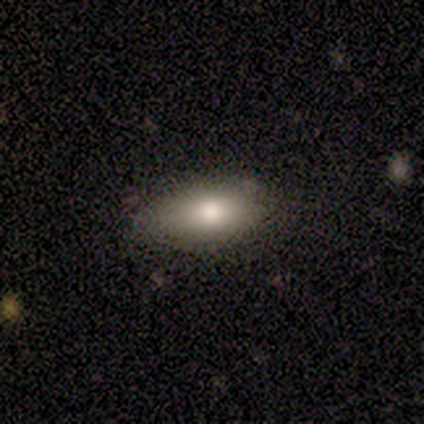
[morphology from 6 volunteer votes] Volunteers were most divided on "how rounded": in between: 80%, cigar-shaped: 20%, round: 0%. More confident: smooth or featured — smooth (83%); merging — none (80%).